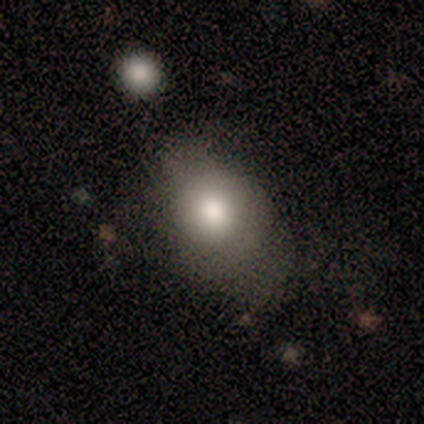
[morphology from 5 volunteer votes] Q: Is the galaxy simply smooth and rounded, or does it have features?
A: smooth — 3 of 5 (60%).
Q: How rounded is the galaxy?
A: round — 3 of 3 (100%).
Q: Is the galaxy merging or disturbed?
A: none — 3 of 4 (75%).